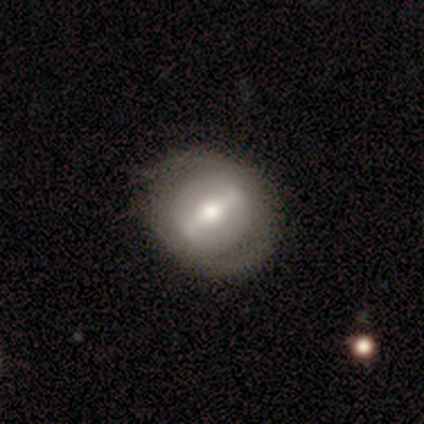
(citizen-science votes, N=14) Q: Smooth or featured?
A: featured or disk (43%); runner-up: smooth (36%)
Q: Edge-on disk?
A: no (100%)
Q: Bar?
A: strong (83%); runner-up: no (17%)
Q: Spiral arms?
A: no (83%); runner-up: yes (17%)
Q: Bulge size?
A: moderate (83%); runner-up: small (17%)
Q: Merging?
A: none (55%); runner-up: minor disturbance (36%)